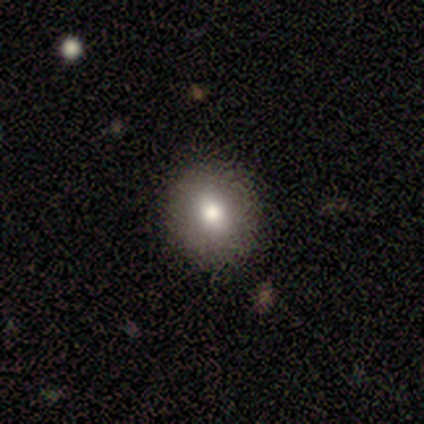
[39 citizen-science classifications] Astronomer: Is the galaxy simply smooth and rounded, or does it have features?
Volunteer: smooth — 51% (runner-up: featured or disk, 33%).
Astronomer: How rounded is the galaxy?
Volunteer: round — 80%.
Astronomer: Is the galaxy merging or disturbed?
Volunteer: none — 88%.